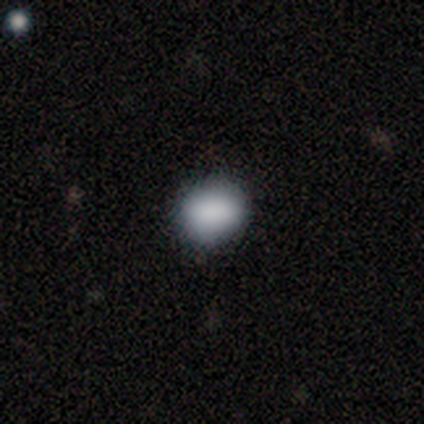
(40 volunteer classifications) Q: Smooth or featured?
A: smooth (90%); runner-up: featured or disk (5%)
Q: How rounded?
A: round (58%); runner-up: in between (42%)
Q: Merging?
A: none (84%); runner-up: minor disturbance (16%)